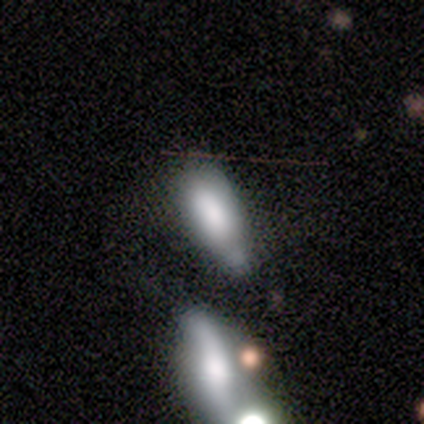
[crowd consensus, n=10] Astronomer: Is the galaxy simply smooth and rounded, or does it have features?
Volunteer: smooth — 80%.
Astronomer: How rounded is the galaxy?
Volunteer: in between — 75%.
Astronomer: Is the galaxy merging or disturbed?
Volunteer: minor disturbance — 67%.